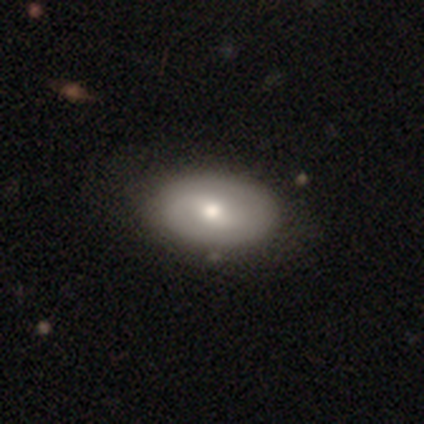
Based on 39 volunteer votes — Smooth or featured?
  - smooth: 62% *
  - featured or disk: 36%
  - star or artifact: 3%
How rounded?
  - in between: 92% *
  - round: 8%
  - cigar-shaped: 0%
Merging?
  - none: 68% *
  - minor disturbance: 5%
  - merger: 3%
  - major disturbance: 0%